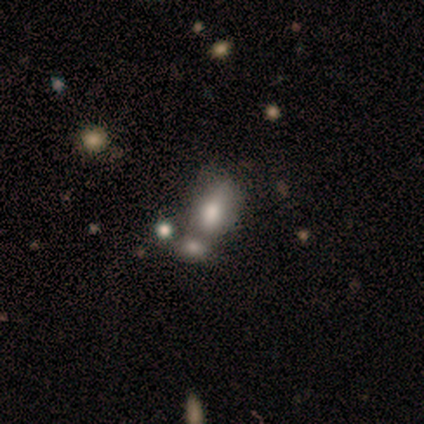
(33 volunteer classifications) Smooth or featured?
  - smooth: 79% *
  - featured or disk: 15%
  - star or artifact: 6%
How rounded?
  - in between: 81% *
  - round: 19%
  - cigar-shaped: 0%
Merging?
  - merger: 61% *
  - none: 0%
  - minor disturbance: 0%
  - major disturbance: 0%